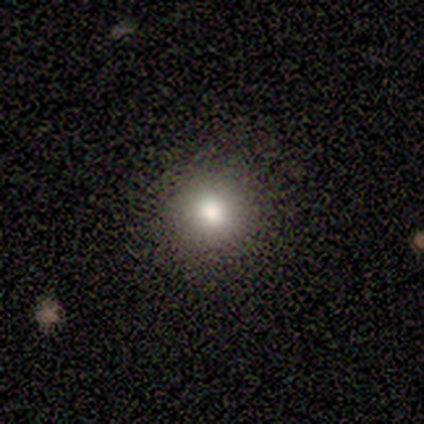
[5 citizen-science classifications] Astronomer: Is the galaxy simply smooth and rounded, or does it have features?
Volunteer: smooth — 80%.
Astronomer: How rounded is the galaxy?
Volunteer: round — 100%.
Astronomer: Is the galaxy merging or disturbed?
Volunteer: none — 100%.